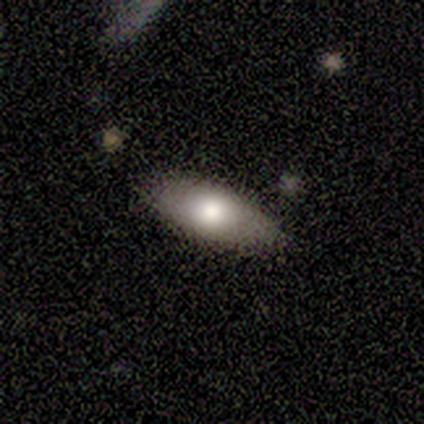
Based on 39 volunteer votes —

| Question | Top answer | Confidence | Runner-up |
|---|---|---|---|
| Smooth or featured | smooth | 69% | featured or disk (23%) |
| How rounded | in between | 96% | cigar-shaped (4%) |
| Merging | none | 83% | minor disturbance (14%) |